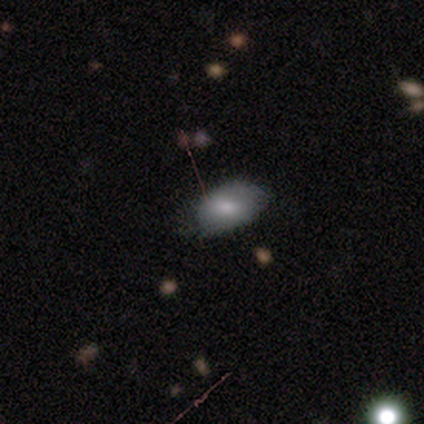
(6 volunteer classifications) A smooth galaxy with no disk features (83%) that is in between round and cigar-shaped (80%). Merging: none (50%, tied with minor disturbance).